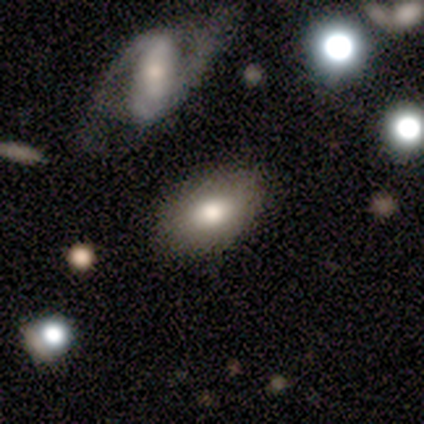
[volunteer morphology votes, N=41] Volunteers were most divided on "smooth or featured": smooth: 73%, featured or disk: 20%, star or artifact: 7%. More confident: how rounded — in between (83%); merging — none (76%).